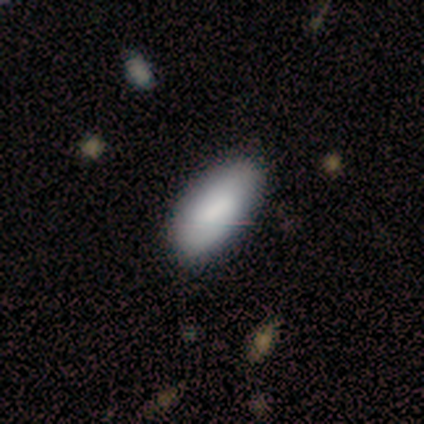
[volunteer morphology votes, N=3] A smooth galaxy with no disk features (67%) that is in between round and cigar-shaped (100%). Merging: none (100%).